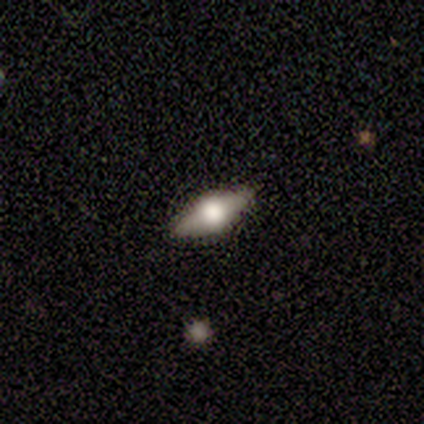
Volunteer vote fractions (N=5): Volunteers were most divided on "bulge size" (2-way tie): large: 50%, moderate: 50%, dominant: 0%, small: 0%, none: 0%. More confident: bar — no (100%); spiral arms — no (100%); merging — none (80%); edge-on disk — no (67%); smooth or featured — featured or disk (60%).